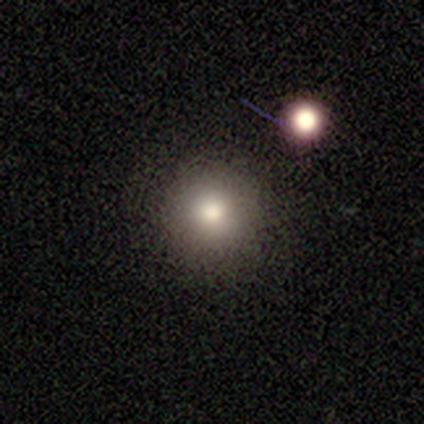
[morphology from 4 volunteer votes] A smooth galaxy with no disk features (50%, tied with featured or disk) that is round (100%). Merging: none (75%).